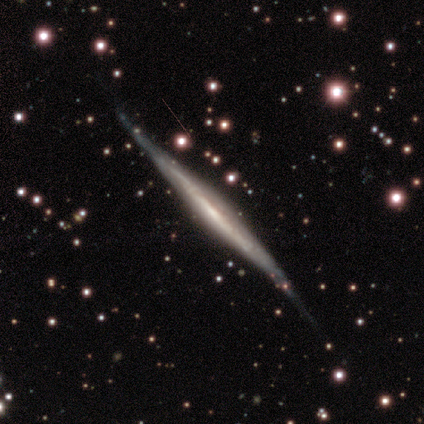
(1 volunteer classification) This is clearly a featured or disk galaxy (100%). It is clearly viewed edge-on (100%). Edge-on bulge: clearly none (100%). Merging: clearly none (100%).